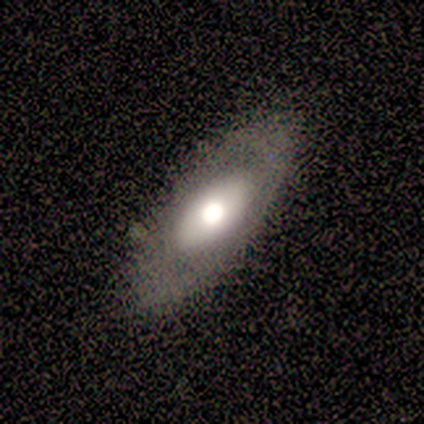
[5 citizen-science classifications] Smooth or featured? 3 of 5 (60%) said featured or disk. Edge-on disk? 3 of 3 (100%) said no. Bar? 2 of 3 (67%) said no. Spiral arms? 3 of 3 (100%) said no. Bulge size? 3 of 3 (100%) said large. Merging? 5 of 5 (100%) said none.